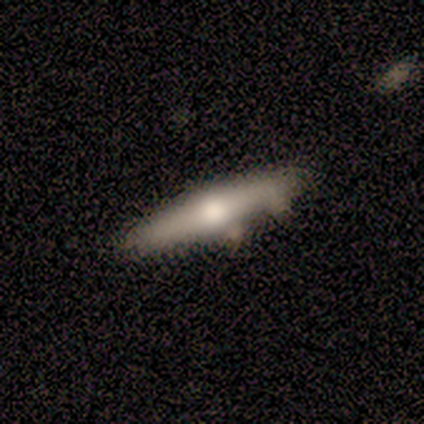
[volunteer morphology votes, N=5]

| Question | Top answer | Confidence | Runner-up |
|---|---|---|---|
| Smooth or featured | featured or disk | 60% | smooth (40%) |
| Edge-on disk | yes | 67% | no (33%) |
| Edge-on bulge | rounded | 100% | — |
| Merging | none | 80% | minor disturbance (20%) |